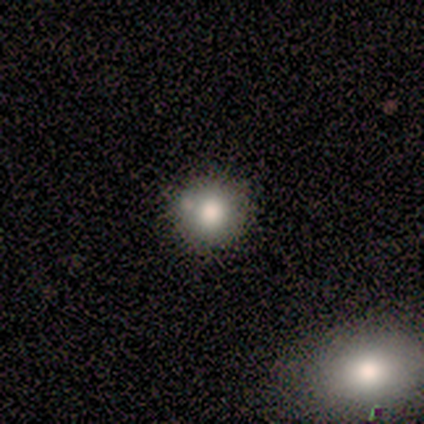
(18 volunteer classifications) Smooth or featured? 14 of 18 (78%) said smooth. How rounded? 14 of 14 (100%) said round. Merging? 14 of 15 (93%) said none.